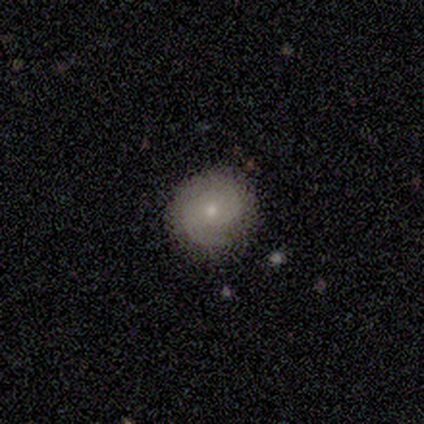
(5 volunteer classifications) smooth_or_featured: featured or disk (p=1.00)
disk_edge_on: no (p=1.00)
bar: no (p=1.00)
has_spiral_arms: yes (p=0.60) [alt: no p=0.40]
spiral_winding: tight (p=0.67) [alt: medium p=0.33]
spiral_arm_count: 2 (p=1.00)
bulge_size: small (p=0.80) [alt: moderate p=0.20]
merging: none (p=1.00)